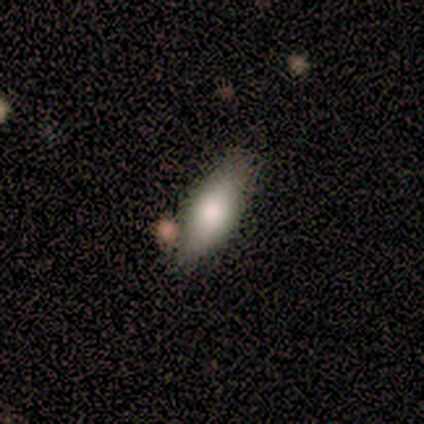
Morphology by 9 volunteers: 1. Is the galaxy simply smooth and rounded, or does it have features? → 78% smooth, 11% featured or disk, 11% star or artifact.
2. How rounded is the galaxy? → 71% in between, 29% cigar-shaped, 0% round.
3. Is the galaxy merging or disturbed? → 62% none, 25% minor disturbance, 12% major disturbance, 0% merger.